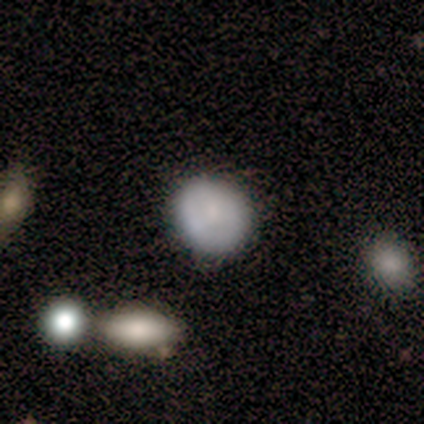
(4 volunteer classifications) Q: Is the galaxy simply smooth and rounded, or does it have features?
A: smooth — 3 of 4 (75%).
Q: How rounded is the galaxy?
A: round — 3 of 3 (100%).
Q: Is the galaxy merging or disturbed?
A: none — 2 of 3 (67%).